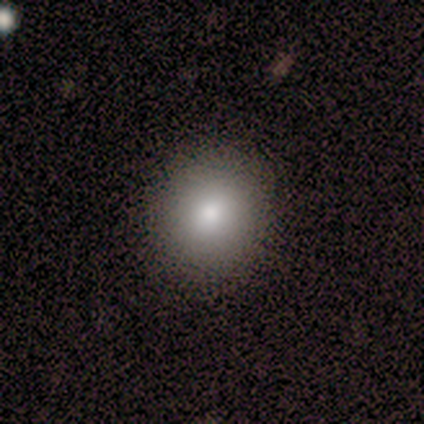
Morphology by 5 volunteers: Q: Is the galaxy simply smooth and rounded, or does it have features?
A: smooth — 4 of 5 (80%).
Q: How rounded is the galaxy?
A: round — 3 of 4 (75%).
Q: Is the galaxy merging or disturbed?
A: none — 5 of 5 (100%).